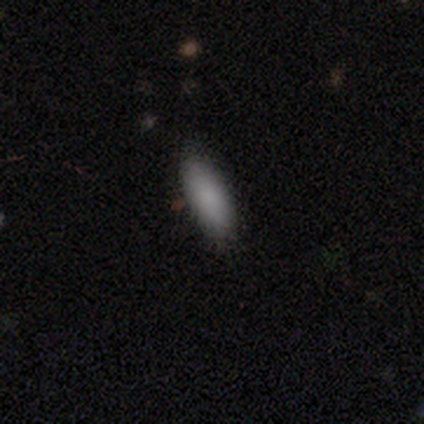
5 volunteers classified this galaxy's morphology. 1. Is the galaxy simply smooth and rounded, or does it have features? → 100% smooth, 0% featured or disk, 0% star or artifact.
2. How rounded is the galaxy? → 100% in between, 0% round, 0% cigar-shaped.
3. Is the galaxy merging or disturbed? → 100% none, 0% minor disturbance, 0% major disturbance, 0% merger.